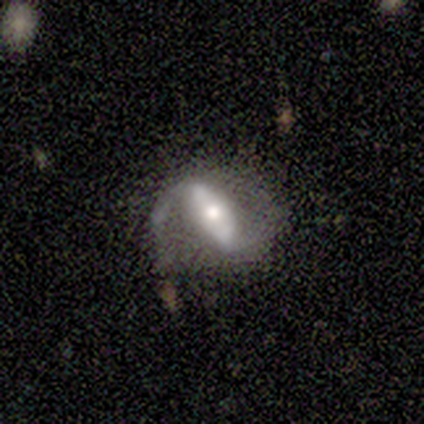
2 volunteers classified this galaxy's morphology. Q: Smooth or featured?
A: featured or disk (100%)
Q: Edge-on disk?
A: yes (50%); tied with: no (50%)
Q: Edge-on bulge?
A: rounded (100%)
Q: Merging?
A: none (50%); tied with: merger (50%)